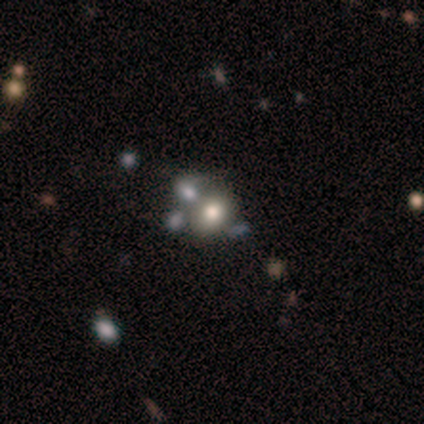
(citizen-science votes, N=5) smooth-or-featured: smooth: 60% | featured or disk: 40% | star or artifact: 0%
  how-rounded: in between: 67% | round: 33% | cigar-shaped: 0%
  merging: none: 40% (tied) | merger: 40% (tied) | major disturbance: 20% | minor disturbance: 0%